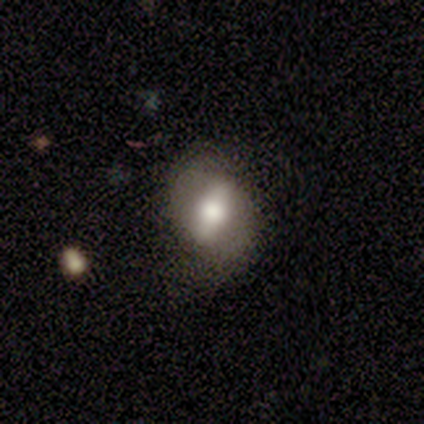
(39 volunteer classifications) Smooth or featured? featured or disk (67%)
Edge-on disk? no (77%)
Bar? strong (65%)
Spiral arms? no (60%)
Bulge size? moderate (60%)
Merging? none (58%)